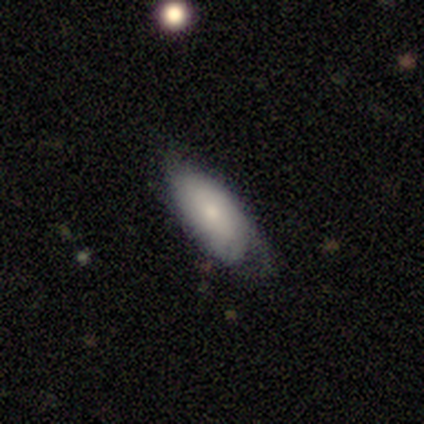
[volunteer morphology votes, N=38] This is possibly a smooth galaxy (55%). How rounded: clearly in between (81%). Merging: possibly none (46%).